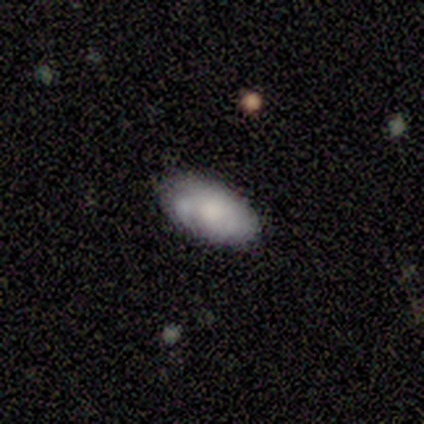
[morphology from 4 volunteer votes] A smooth galaxy with no disk features (100%) that is in between round and cigar-shaped (100%). Merging: none (50%, tied with minor disturbance).